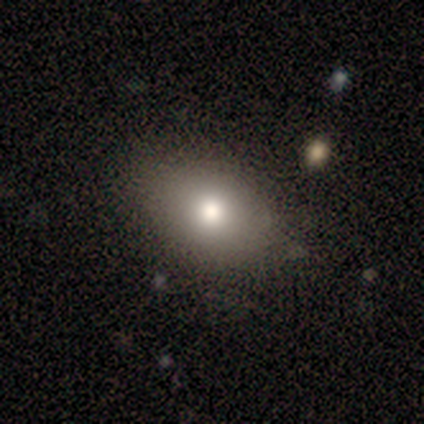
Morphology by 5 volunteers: Smooth or featured? 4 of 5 (80%) said smooth. How rounded? 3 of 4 (75%) said in between. Merging? 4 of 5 (80%) said none.